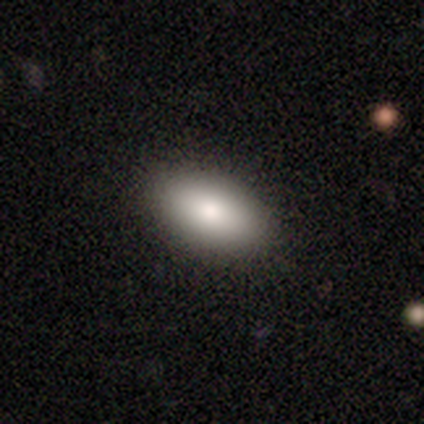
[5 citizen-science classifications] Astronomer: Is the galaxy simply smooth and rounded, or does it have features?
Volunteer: smooth — 80%.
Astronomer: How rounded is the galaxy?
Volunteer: in between — 100%.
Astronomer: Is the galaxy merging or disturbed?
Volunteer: none — 100%.